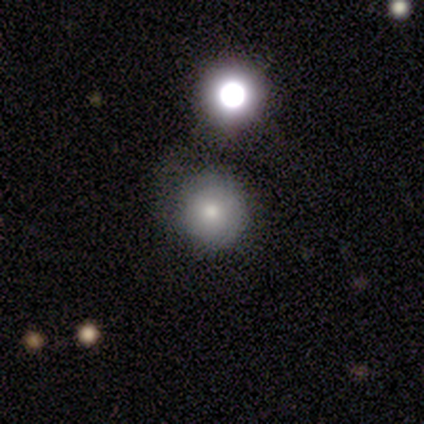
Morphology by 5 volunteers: Volunteers were most divided on "merging": merger: 60%, none: 40%, minor disturbance: 0%, major disturbance: 0%. More confident: how rounded — round (100%); smooth or featured — smooth (80%).